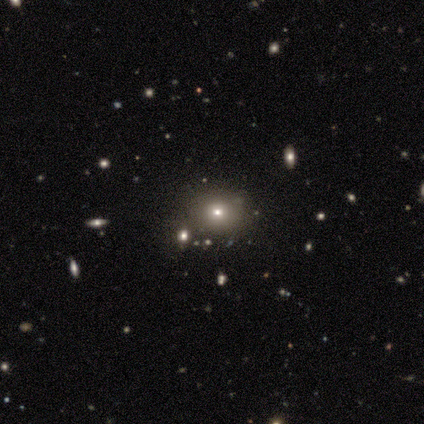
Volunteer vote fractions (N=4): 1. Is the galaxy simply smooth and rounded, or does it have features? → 75% smooth, 25% star or artifact, 0% featured or disk.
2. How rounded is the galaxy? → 67% round, 33% in between, 0% cigar-shaped.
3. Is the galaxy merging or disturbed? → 100% none, 0% minor disturbance, 0% major disturbance, 0% merger.